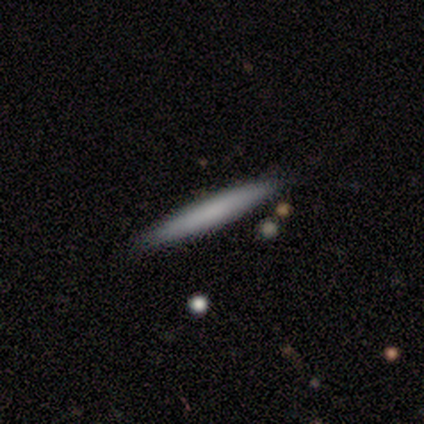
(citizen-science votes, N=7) This is clearly a smooth galaxy (100%). How rounded: clearly cigar-shaped (86%). Merging: clearly none (86%).